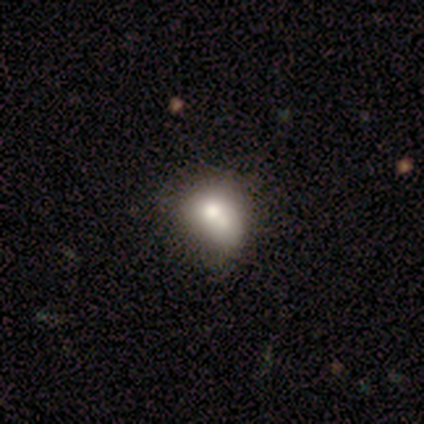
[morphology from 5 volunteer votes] type=smooth (60%); roundness=in between (67%); merging=none (50%, tied with minor disturbance).